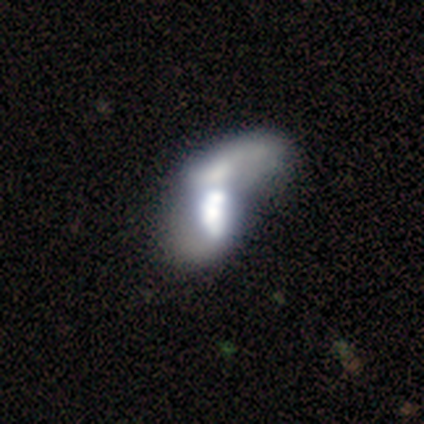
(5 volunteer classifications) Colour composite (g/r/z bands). It shows a featured or disk galaxy (80%) with no bar (100%), no spiral arms (100%) and a large central bulge (50%, tied with moderate). Merging: merger (80%).